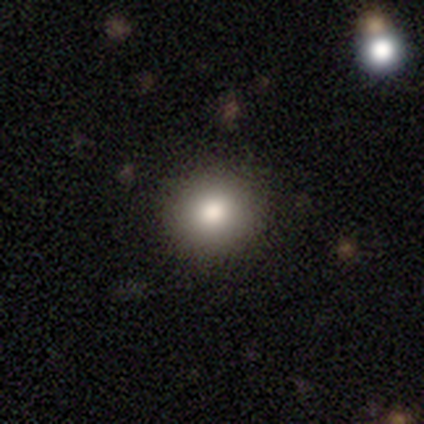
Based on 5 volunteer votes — Smooth or featured? smooth (80%)
How rounded? round (75%)
Merging? none (100%)